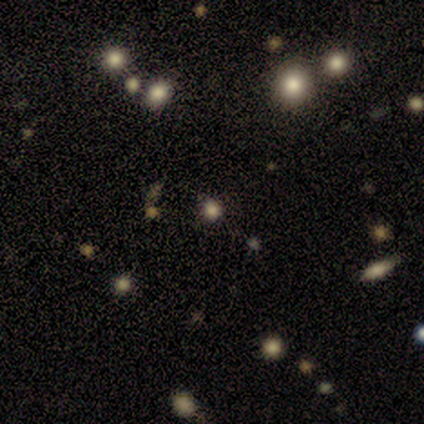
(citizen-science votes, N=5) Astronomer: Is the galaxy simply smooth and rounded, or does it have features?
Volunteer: star or artifact — 80%.